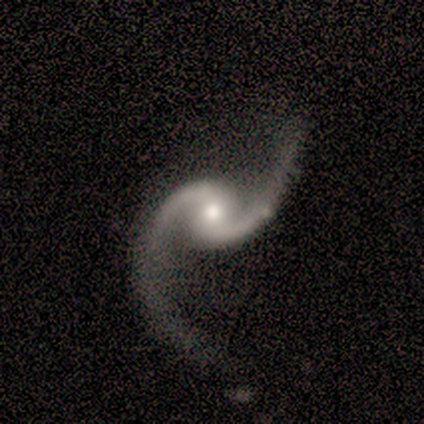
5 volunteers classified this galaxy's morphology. smooth_or_featured: featured or disk (p=0.80) [alt: smooth p=0.20]
disk_edge_on: no (p=1.00)
bar: no (p=0.50) [alt: strong p=0.25]
has_spiral_arms: yes (p=1.00)
spiral_winding: loose (p=0.75) [alt: medium p=0.25]
spiral_arm_count: 2 (p=1.00)
bulge_size: small (p=0.50) [alt: large p=0.25]
merging: none (p=0.60) [alt: major disturbance p=0.40]